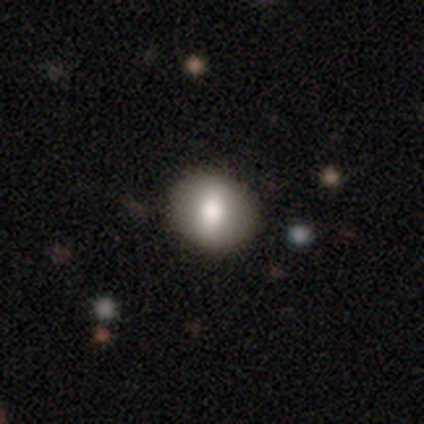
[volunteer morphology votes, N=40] Smooth or featured? 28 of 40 (70%) said smooth. How rounded? 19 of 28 (68%) said round. Merging? 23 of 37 (62%) said none.